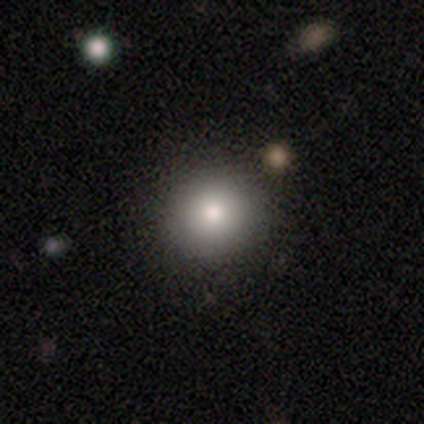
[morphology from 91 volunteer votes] smooth 84%, star or artifact 13%, featured or disk 3%. Down the decision tree: how rounded — round (88%); merging — none (90%).